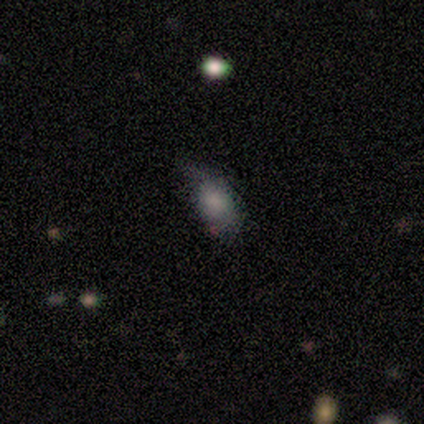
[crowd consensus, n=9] A smooth galaxy with no disk features (89%) that is in between round and cigar-shaped (62%). Merging: minor disturbance (50%).